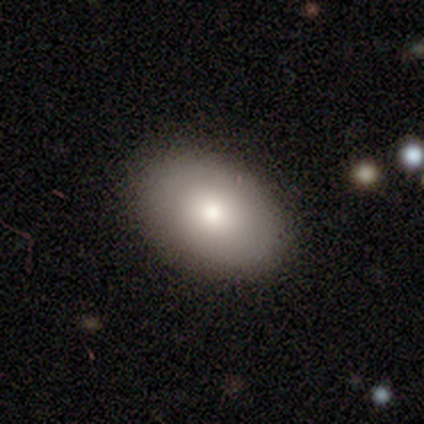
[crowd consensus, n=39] Morphology: type=smooth (90%); roundness=in between (80%); merging=none (62%).